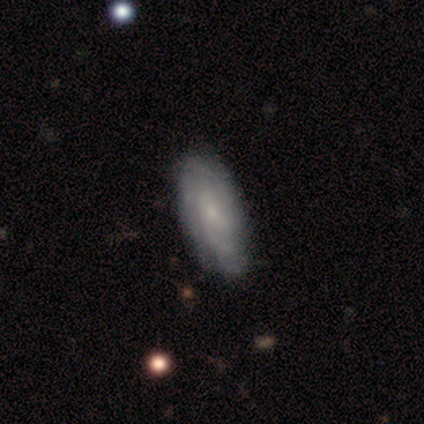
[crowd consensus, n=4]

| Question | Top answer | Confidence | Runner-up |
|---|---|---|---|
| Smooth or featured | featured or disk | 50% | smooth (25%) |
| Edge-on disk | no | 100% | — |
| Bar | no | 100% | — |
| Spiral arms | yes | 100% | — |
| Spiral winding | tight | 100% | — |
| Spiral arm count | can't tell | 100% | — |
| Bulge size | small | 100% | — |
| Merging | none | 100% | — |